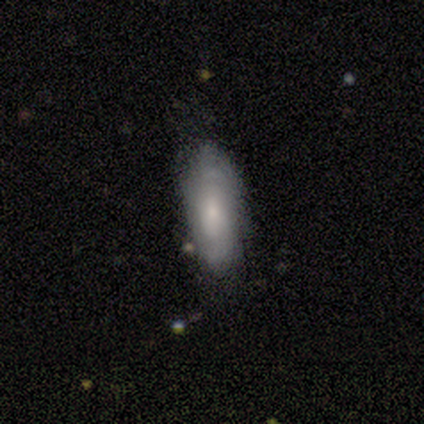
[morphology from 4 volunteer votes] type=smooth (50%); roundness=in between (100%); merging=minor disturbance (67%).